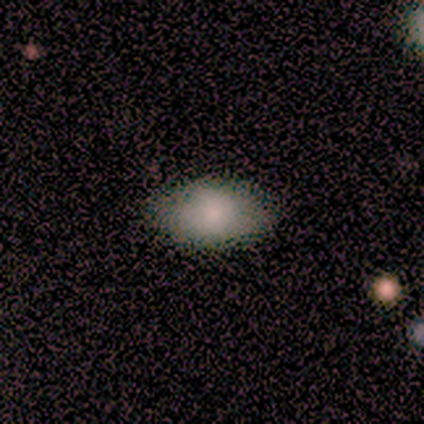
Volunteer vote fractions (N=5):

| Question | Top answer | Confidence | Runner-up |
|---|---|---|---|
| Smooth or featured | smooth | 80% | star or artifact (20%) |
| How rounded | in between | 100% | — |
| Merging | none | 100% | — |